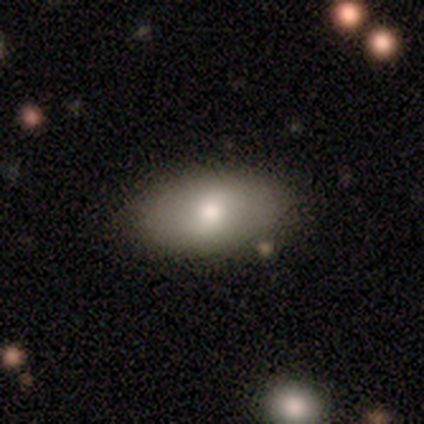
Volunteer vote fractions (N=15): This appears to be a smooth galaxy with no disk features (67%) that is in between round and cigar-shaped (100%). Merging: none (87%).